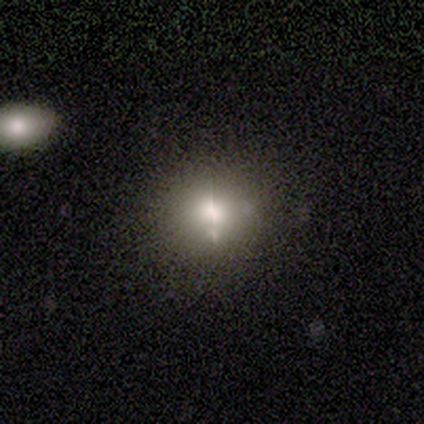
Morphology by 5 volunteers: smooth_or_featured: smooth (p=0.80) [alt: featured or disk p=0.20]
how_rounded: round (p=0.75) [alt: cigar-shaped p=0.25]
merging: none (p=0.60) [alt: minor disturbance p=0.20]